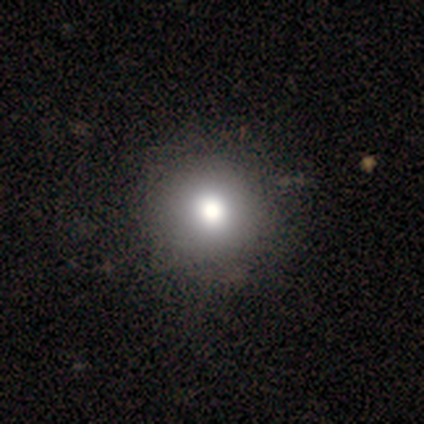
smooth_or_featured: smooth (p=0.50) [alt: featured or disk p=0.25]
how_rounded: round (p=1.00)
merging: none (p=1.00)